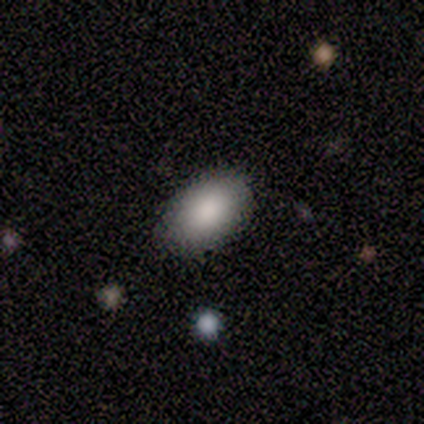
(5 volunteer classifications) This appears to be a smooth galaxy with no disk features (100%) that is in between round and cigar-shaped (100%). Merging: none (80%).